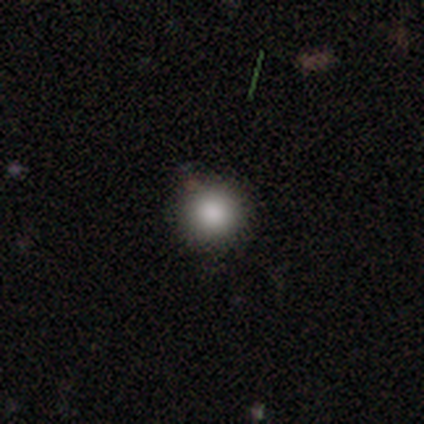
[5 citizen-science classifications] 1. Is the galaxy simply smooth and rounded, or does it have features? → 60% smooth, 40% star or artifact, 0% featured or disk.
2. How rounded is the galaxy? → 100% round, 0% in between, 0% cigar-shaped.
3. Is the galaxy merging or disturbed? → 67% none, 33% major disturbance, 0% minor disturbance, 0% merger.